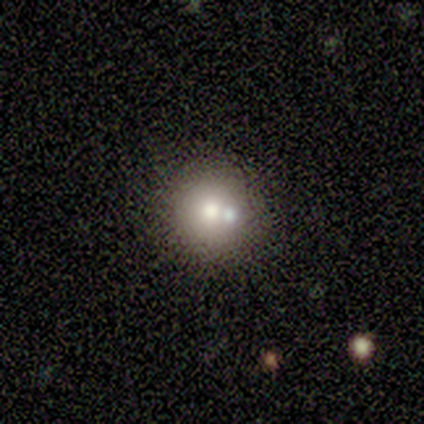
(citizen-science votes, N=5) Q: Smooth or featured?
A: smooth (80%); runner-up: featured or disk (20%)
Q: How rounded?
A: round (100%)
Q: Merging?
A: none (80%); runner-up: merger (20%)